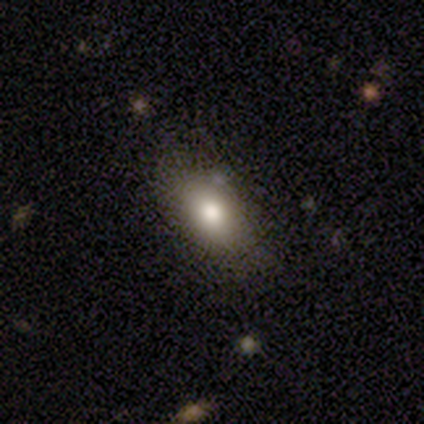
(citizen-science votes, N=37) Smooth or featured: smooth — 76% (featured or disk — 16%)
How rounded: in between — 82% (round — 18%)
Merging: none — 79% (minor disturbance — 18%)